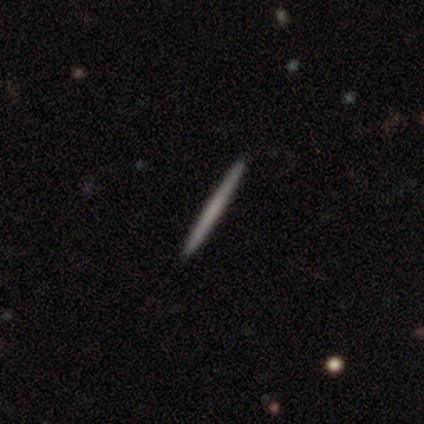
Overall: smooth (80%). How rounded: cigar-shaped (100%). Merging: none (100%).